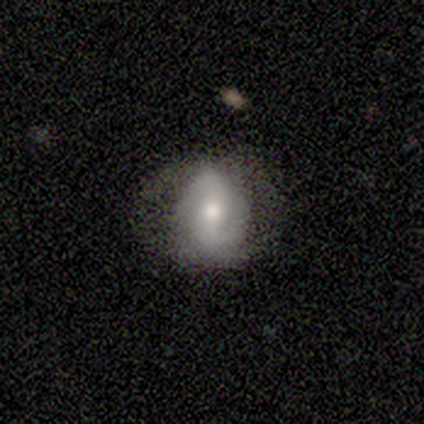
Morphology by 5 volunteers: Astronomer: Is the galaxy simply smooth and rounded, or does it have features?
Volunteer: smooth — 60%.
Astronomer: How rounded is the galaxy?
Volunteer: in between — 67%.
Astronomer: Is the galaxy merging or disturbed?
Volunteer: none — 100%.